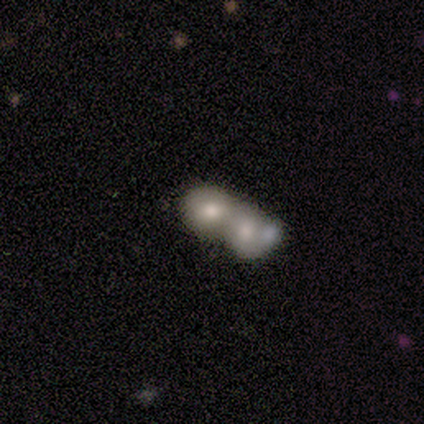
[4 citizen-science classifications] Smooth or featured? 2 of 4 (50%) said featured or disk. Edge-on disk? 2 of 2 (100%) said no. Bar? 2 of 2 (100%) said no. Spiral arms? 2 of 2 (100%) said no. Bulge size? 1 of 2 (50%, tied with small) said large. Merging? 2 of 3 (67%) said merger.